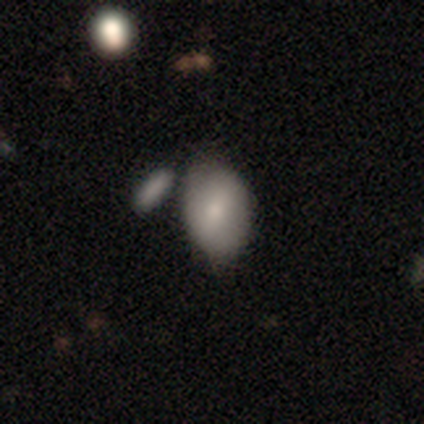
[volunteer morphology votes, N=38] Smooth or featured? smooth (79%)
How rounded? in between (77%)
Merging? none (44%)